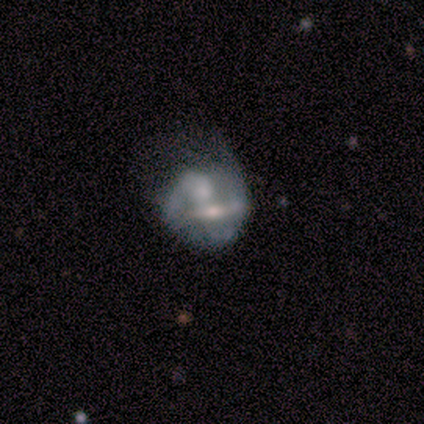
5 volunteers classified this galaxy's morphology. This appears to be a featured or disk galaxy (100%) with a strong bar (33%, tied with weak and no), no spiral arms (100%) and a moderate central bulge (67%). Merging: merger (40%).